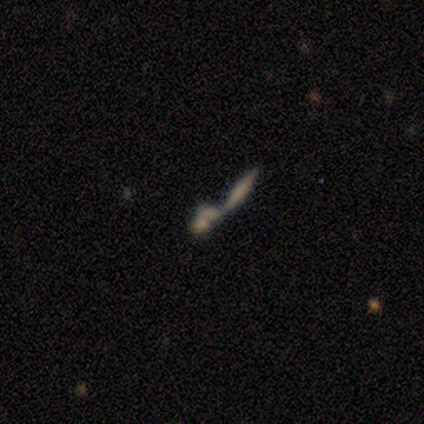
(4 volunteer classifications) This appears to be a featured or disk galaxy (75%) viewed edge-on (100%) with a rounded central bulge (67%). Merging: merger (100%).